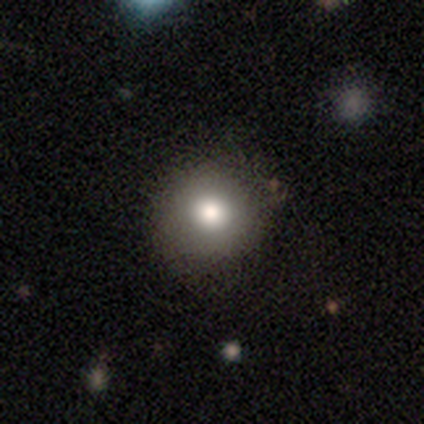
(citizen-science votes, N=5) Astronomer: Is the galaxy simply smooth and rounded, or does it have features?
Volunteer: smooth — 100%.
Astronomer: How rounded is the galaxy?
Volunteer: round — 80%.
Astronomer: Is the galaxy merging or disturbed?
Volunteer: none — 80%.